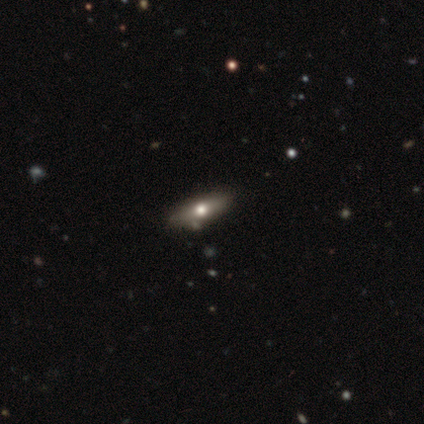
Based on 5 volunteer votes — smooth_or_featured: smooth (p=0.60) [alt: featured or disk p=0.40]
how_rounded: in between (p=0.67) [alt: cigar-shaped p=0.33]
merging: none (p=1.00)